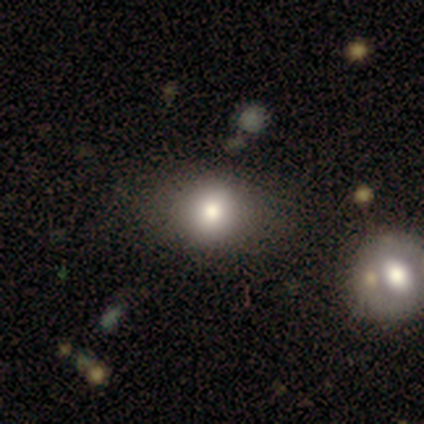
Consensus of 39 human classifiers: Volunteers were most divided on "merging": none: 57%, merger: 14%, minor disturbance: 9%, major disturbance: 0%. More confident: smooth or featured — smooth (79%); how rounded — round (74%).